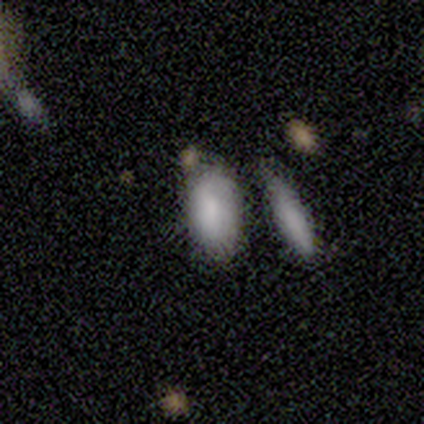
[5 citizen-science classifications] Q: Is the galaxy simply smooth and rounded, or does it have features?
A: smooth — 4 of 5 (80%).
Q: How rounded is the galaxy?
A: in between — 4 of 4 (100%).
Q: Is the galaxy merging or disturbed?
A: none — 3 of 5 (60%).